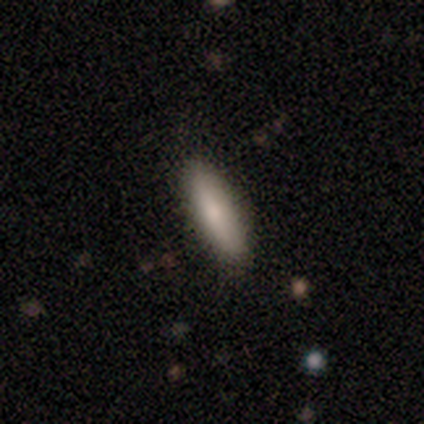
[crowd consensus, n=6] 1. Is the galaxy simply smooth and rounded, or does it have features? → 50% smooth, 33% featured or disk, 17% star or artifact.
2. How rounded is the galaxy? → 67% in between, 33% cigar-shaped, 0% round.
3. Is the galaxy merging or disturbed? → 80% none, 20% minor disturbance, 0% major disturbance, 0% merger.